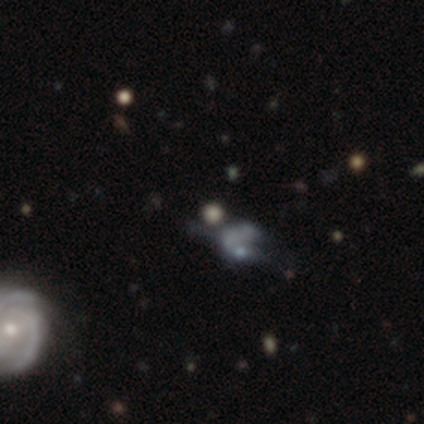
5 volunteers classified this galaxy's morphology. This appears to be a star or artifact, not a galaxy (80%).